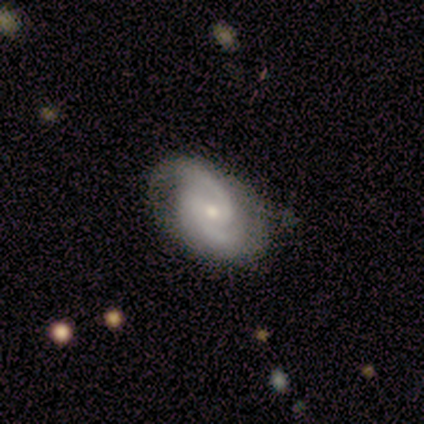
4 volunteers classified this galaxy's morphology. Smooth or featured: featured or disk — 100%
Edge-on disk: no — 100%
Bar: weak — 75% (no — 25%)
Spiral arms: yes — 75% (no — 25%)
Spiral winding: medium — 100%
Spiral arm count: 2 — 67% (3 — 33%)
Bulge size: moderate — 50% (tied with small — 50%)
Merging: none — 50% (tied with minor disturbance — 50%)